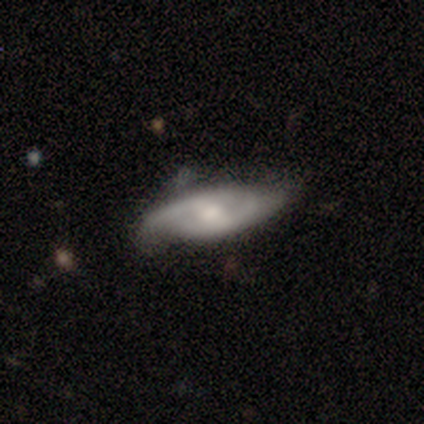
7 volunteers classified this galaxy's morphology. Overall: featured or disk (71%). Edge-on disk: no (80%). Bar: no (50%; strong 25%). Spiral arms: yes (100%). Spiral arm count: 2 (100%). Spiral winding: medium (50%, tied with loose). Bulge size: moderate (75%). Merging: none (71%).